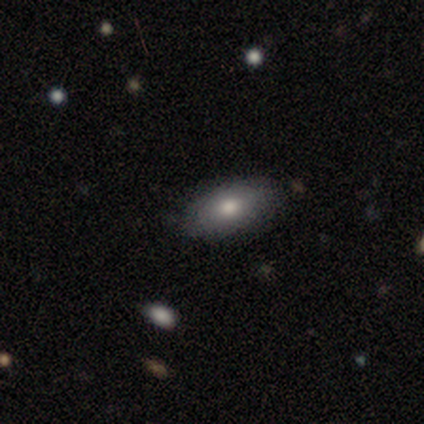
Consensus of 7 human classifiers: Smooth or featured: smooth — 57% (featured or disk — 29%)
How rounded: in between — 100%
Merging: none — 100%